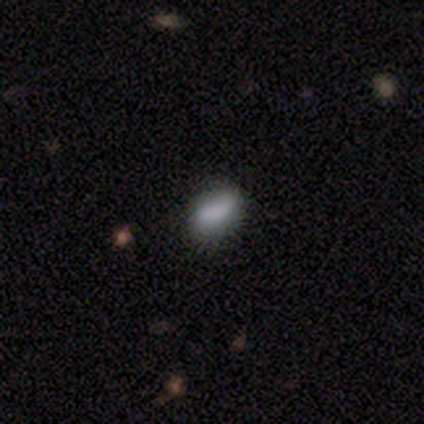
Smooth or featured? 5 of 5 (100%) said smooth. How rounded? 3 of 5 (60%) said in between. Merging? 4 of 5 (80%) said none.